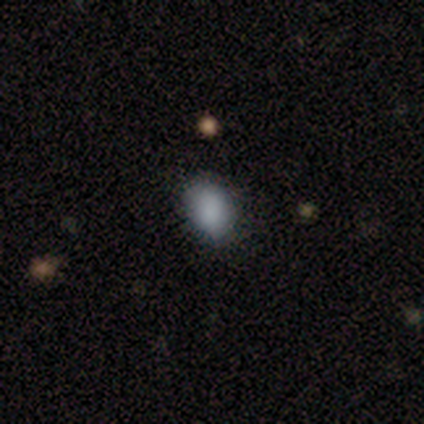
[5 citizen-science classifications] Smooth or featured: smooth — 40% (tied with star or artifact — 40%)
How rounded: in between — 100%
Merging: none — 100%